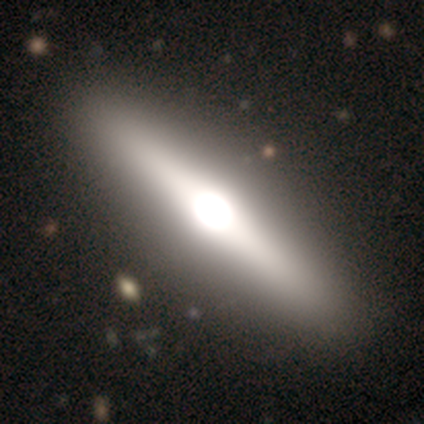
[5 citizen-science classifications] Morphology: type=featured or disk (80%); edge-on=yes (100%); edge-on bulge=rounded (100%); merging=none (100%).